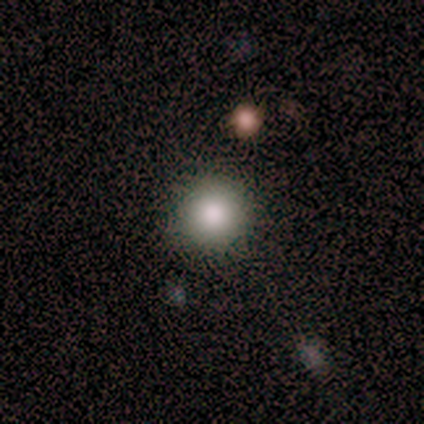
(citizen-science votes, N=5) smooth 40% (tied), featured or disk 40% (tied), star or artifact 20%. Down the decision tree: how rounded — round (100%); merging — none (100%).